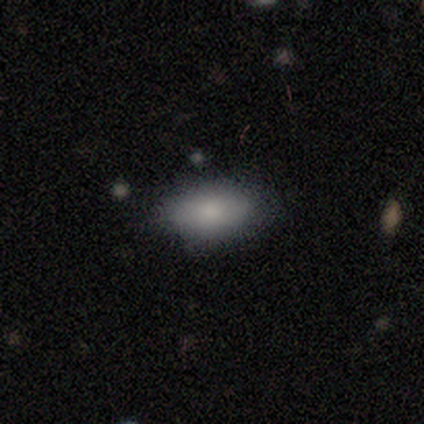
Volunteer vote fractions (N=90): A smooth galaxy with no disk features (86%) that is in between round and cigar-shaped (94%).

Vote fractions:
- Smooth or featured? smooth: 86% / featured or disk: 9% / star or artifact: 6%
- How rounded? in between: 94% / cigar-shaped: 4% / round: 3%
- Merging? none: 75% / minor disturbance: 18% / merger: 5% / major disturbance: 2%